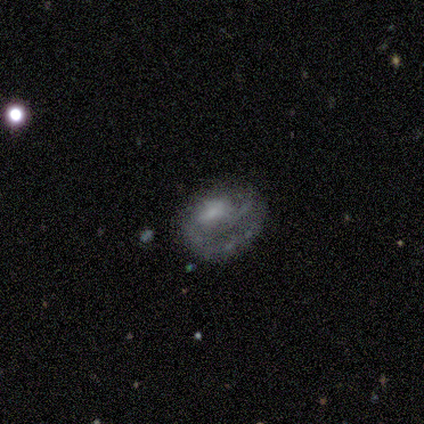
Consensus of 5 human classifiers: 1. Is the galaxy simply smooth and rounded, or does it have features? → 100% featured or disk, 0% smooth, 0% star or artifact.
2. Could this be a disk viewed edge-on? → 100% no, 0% yes.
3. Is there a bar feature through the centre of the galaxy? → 80% no, 20% weak, 0% strong.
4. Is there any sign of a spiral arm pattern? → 80% no, 20% yes.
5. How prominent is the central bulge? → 40% moderate (tied), 40% small (tied), 20% none, 0% dominant, 0% large.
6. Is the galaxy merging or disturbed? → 40% none (tied), 40% major disturbance (tied), 20% minor disturbance, 0% merger.